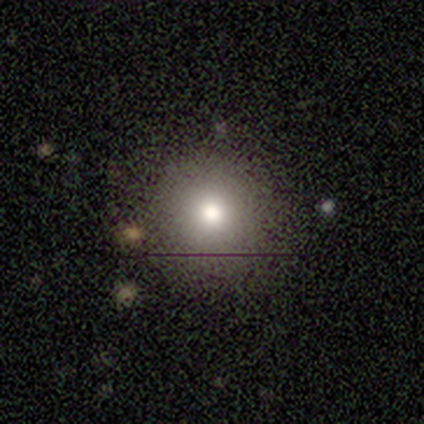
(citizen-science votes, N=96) Volunteers were most divided on "smooth or featured": smooth: 74%, star or artifact: 15%, featured or disk: 11%. More confident: how rounded — round (93%); merging — none (78%).